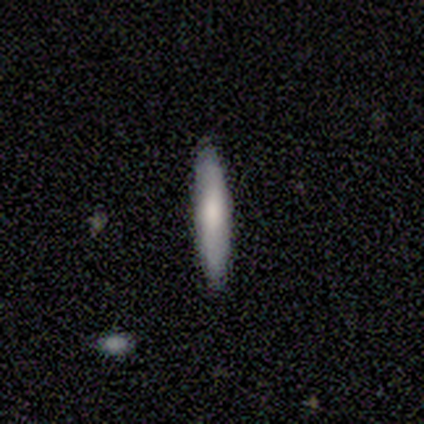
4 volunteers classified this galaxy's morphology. A smooth galaxy with no disk features (100%) that is in between round and cigar-shaped (50%, tied with cigar-shaped). Merging: none (75%).